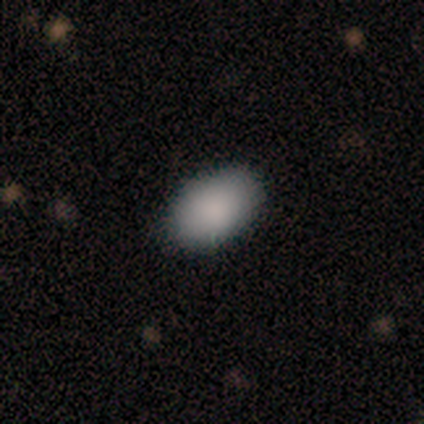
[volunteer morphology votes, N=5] Smooth or featured: smooth — 80% (star or artifact — 20%)
How rounded: in between — 100%
Merging: none — 100%